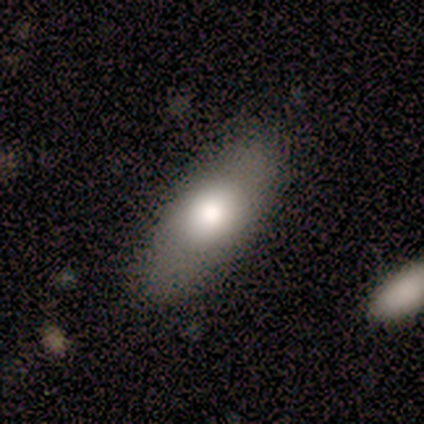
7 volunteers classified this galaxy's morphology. Smooth or featured? 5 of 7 (71%) said smooth. How rounded? 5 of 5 (100%) said in between. Merging? 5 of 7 (71%) said none.